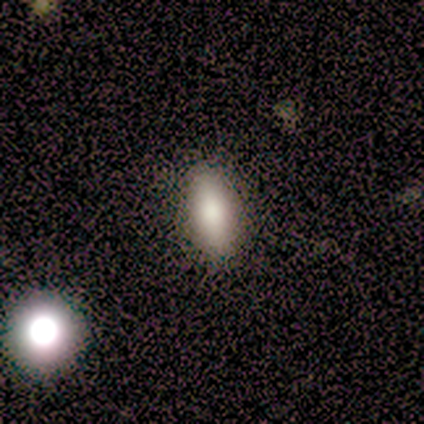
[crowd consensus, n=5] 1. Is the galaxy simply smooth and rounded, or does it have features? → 80% smooth, 20% star or artifact, 0% featured or disk.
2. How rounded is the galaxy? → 75% in between, 25% cigar-shaped, 0% round.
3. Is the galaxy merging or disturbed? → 75% none, 25% major disturbance, 0% minor disturbance, 0% merger.